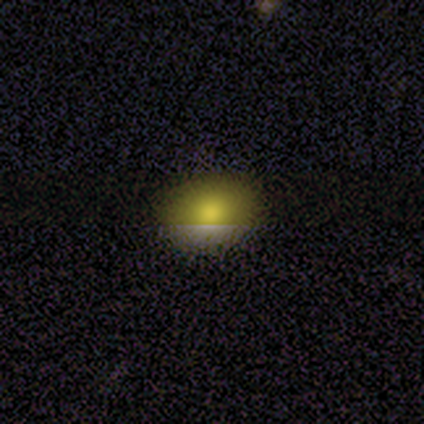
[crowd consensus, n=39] smooth_or_featured: smooth (p=0.69) [alt: star or artifact p=0.21]
how_rounded: in between (p=0.67) [alt: round p=0.33]
merging: none (p=0.74)